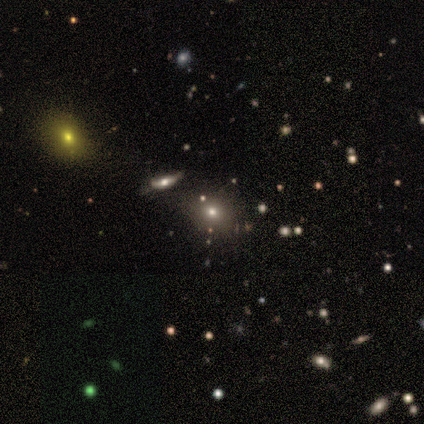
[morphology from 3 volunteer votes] Smooth or featured? star or artifact (67%)